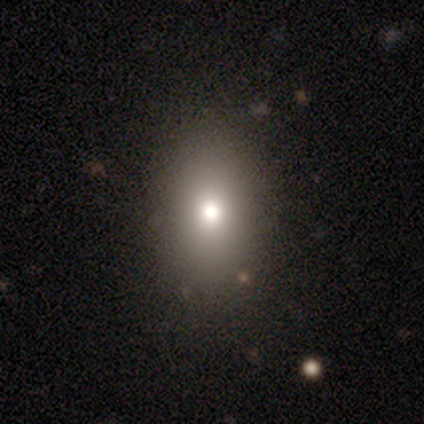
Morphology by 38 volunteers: A smooth galaxy with no disk features (79%) that is in between round and cigar-shaped (80%).

Vote fractions:
- Smooth or featured? smooth: 79% / featured or disk: 16% / star or artifact: 5%
- How rounded? in between: 80% / round: 10% / cigar-shaped: 10%
- Merging? none: 86% / minor disturbance: 8% / major disturbance: 6% / merger: 0%